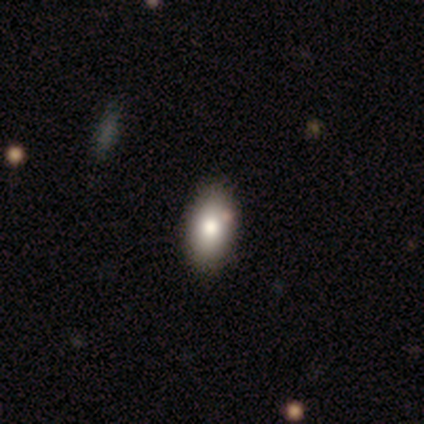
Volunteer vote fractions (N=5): This is clearly a smooth galaxy (100%). How rounded: clearly in between (100%). Merging: clearly none (80%).